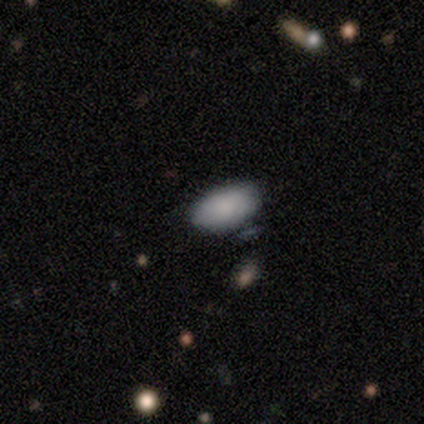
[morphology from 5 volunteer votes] Volunteers were most divided on "smooth or featured": smooth: 80%, star or artifact: 20%, featured or disk: 0%. More confident: how rounded — in between (100%); merging — none (100%).